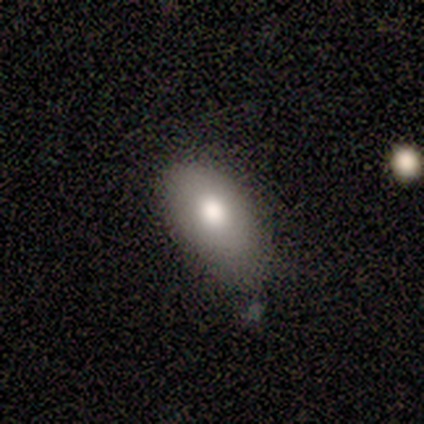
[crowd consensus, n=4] Morphology: type=smooth (100%); roundness=in between (100%); merging=minor disturbance (50%).